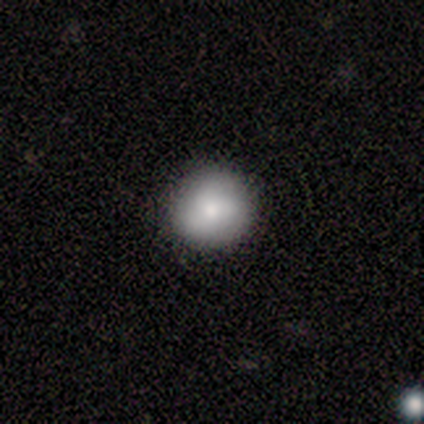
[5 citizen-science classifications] Smooth or featured: smooth — 80% (featured or disk — 20%)
How rounded: round — 100%
Merging: none — 100%